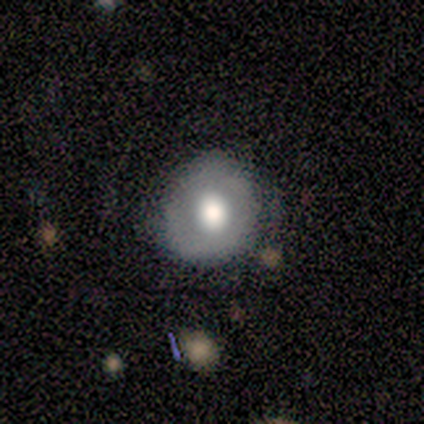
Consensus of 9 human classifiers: smooth 67%, featured or disk 33%, star or artifact 0%. Down the decision tree: how rounded — round (83%); merging — none (78%).